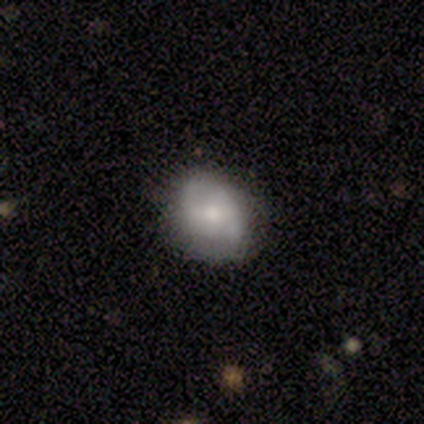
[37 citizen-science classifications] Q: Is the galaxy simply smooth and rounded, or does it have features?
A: featured or disk — 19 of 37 (51%).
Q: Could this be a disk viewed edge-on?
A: no — 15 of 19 (79%).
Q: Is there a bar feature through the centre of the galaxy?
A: no — 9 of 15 (60%).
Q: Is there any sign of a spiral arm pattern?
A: yes — 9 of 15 (60%).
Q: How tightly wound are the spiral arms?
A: medium — 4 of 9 (44%, tied with loose).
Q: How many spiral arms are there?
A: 2 — 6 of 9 (67%).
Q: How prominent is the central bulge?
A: moderate — 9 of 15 (60%).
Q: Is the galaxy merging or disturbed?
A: none — 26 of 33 (79%).